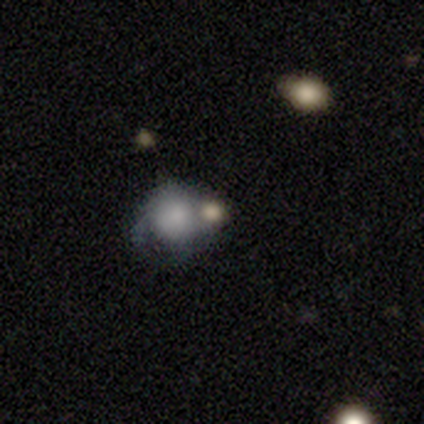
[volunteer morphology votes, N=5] smooth 80%, star or artifact 20%, featured or disk 0%. Down the decision tree: how rounded — round (50%, tied with in between); merging — none (50%).